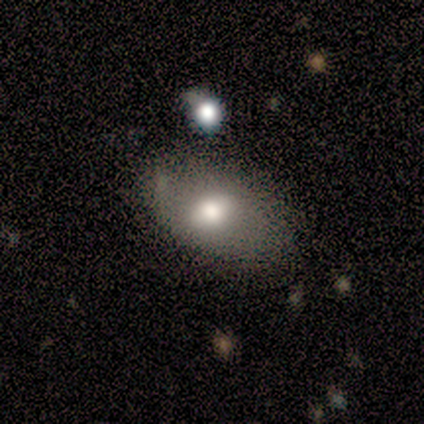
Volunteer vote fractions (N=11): Smooth or featured?
  - smooth: 73% *
  - featured or disk: 27%
  - star or artifact: 0%
How rounded?
  - in between: 88% *
  - round: 12%
  - cigar-shaped: 0%
Merging?
  - none: 64% *
  - merger: 18%
  - minor disturbance: 9%
  - major disturbance: 9%